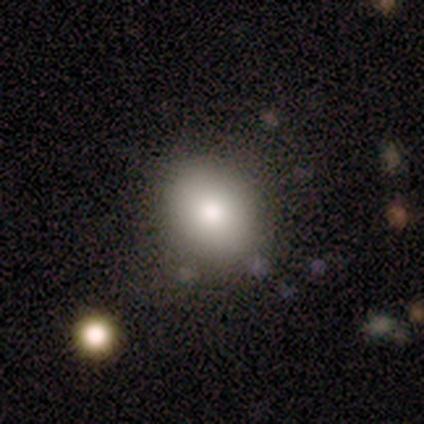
A smooth galaxy with no disk features (100%) that is in between round and cigar-shaped (60%). Merging: none (80%).